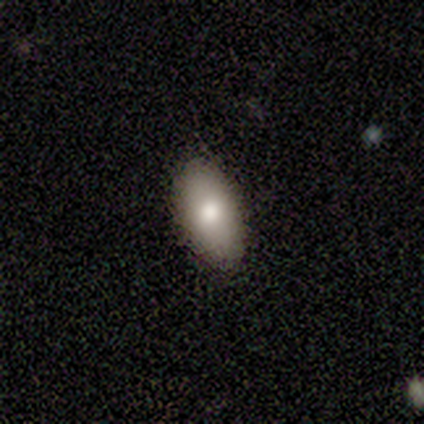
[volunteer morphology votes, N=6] Q: Smooth or featured?
A: smooth (83%); runner-up: featured or disk (17%)
Q: How rounded?
A: in between (100%)
Q: Merging?
A: none (100%)